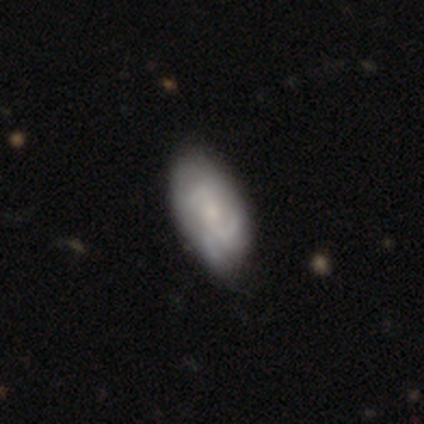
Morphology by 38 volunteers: Volunteers were most divided on "spiral winding": tight: 41%, medium: 37%, loose: 22%. Remaining: edge-on disk — no (100%); spiral arms — yes (100%); bulge size — small (74%); smooth or featured — featured or disk (71%); bar — no (56%); merging — none (46%); spiral arm count — 3 (44%).